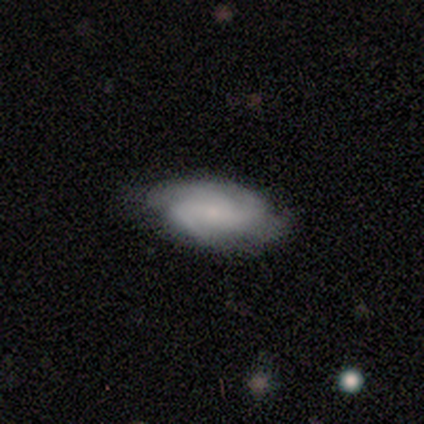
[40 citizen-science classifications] smooth-or-featured: featured or disk: 68% | smooth: 28% | star or artifact: 5%
  disk-edge-on: no: 100% | yes: 0%
    bar: weak: 52% | no: 33% | strong: 15%
    has-spiral-arms: yes: 100% | no: 0%
      spiral-winding: tight: 48% | medium: 33% | loose: 19%
      spiral-arm-count: 2: 52% | 3: 19% | 4: 15% | can't tell: 15% | 1: 0% | more than 4: 0%
    bulge-size: small: 78% | moderate: 11% | none: 11% | dominant: 0% | large: 0%
  merging: none: 76% | minor disturbance: 21% | major disturbance: 3% | merger: 0%